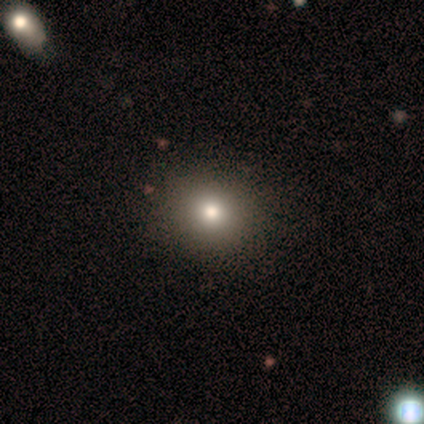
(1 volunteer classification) smooth_or_featured: smooth (p=1.00)
how_rounded: round (p=1.00)
merging: none (p=1.00)